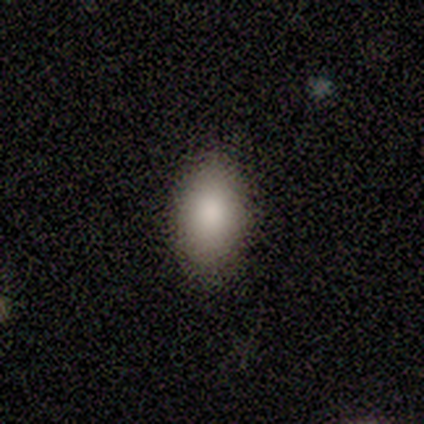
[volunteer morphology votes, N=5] Smooth or featured? 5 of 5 (100%) said smooth. How rounded? 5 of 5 (100%) said in between. Merging? 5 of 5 (100%) said none.